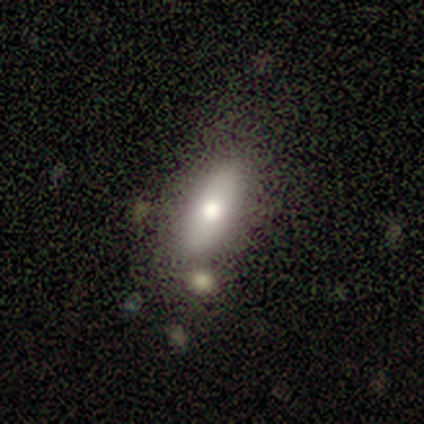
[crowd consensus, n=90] smooth_or_featured: smooth (p=0.77) [alt: featured or disk p=0.18]
how_rounded: in between (p=0.72) [alt: cigar-shaped p=0.28]
merging: none (p=0.64) [alt: minor disturbance p=0.16]